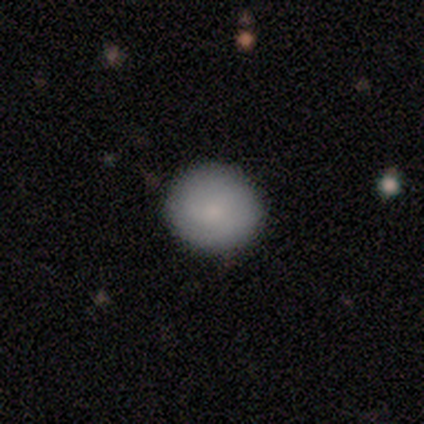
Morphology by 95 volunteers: Smooth or featured? smooth (82%)
How rounded? round (94%)
Merging? none (91%)